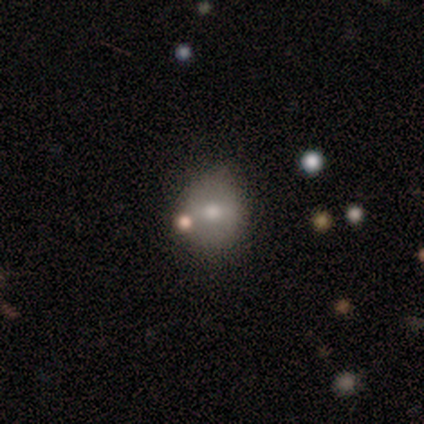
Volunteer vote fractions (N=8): Q: Smooth or featured?
A: featured or disk (62%); runner-up: smooth (25%)
Q: Edge-on disk?
A: no (100%)
Q: Bar?
A: no (60%); runner-up: weak (40%)
Q: Spiral arms?
A: no (80%); runner-up: yes (20%)
Q: Bulge size?
A: moderate (100%)
Q: Merging?
A: none (86%); runner-up: minor disturbance (14%)